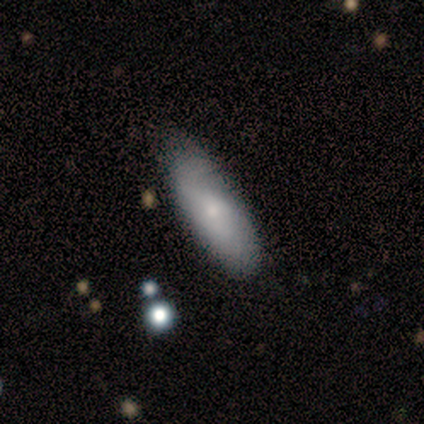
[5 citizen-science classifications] Smooth or featured?
  - smooth: 100% *
  - featured or disk: 0%
  - star or artifact: 0%
How rounded?
  - cigar-shaped: 60% *
  - in between: 40%
  - round: 0%
Merging?
  - none: 80% *
  - minor disturbance: 20%
  - major disturbance: 0%
  - merger: 0%